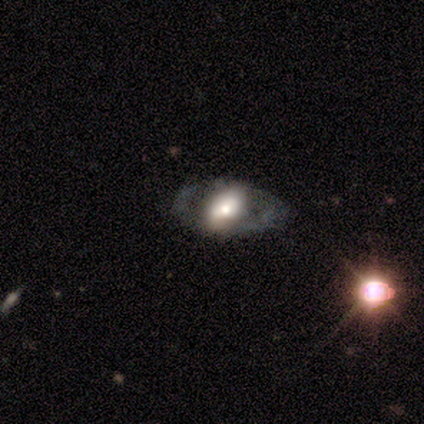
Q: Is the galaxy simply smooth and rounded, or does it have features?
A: featured or disk — 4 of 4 (100%).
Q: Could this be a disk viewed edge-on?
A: no — 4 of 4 (100%).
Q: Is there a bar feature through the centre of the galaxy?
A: no — 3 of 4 (75%).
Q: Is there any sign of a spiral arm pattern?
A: no — 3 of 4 (75%).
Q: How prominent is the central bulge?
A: moderate — 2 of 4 (50%).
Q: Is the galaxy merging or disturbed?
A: none — 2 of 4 (50%).